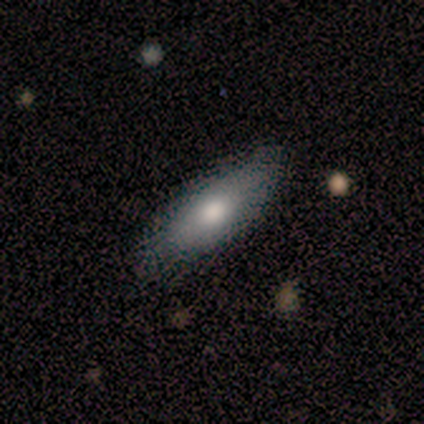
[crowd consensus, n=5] A smooth galaxy with no disk features (80%) that is in between round and cigar-shaped (50%, tied with cigar-shaped). Merging: none (75%).